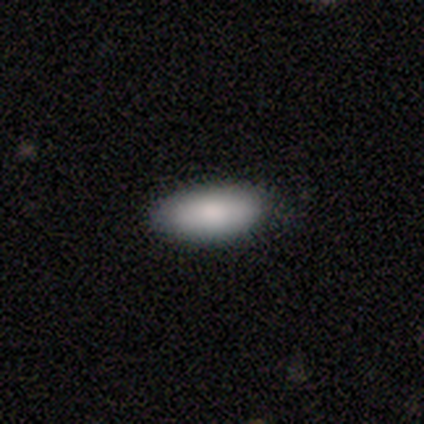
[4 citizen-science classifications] Smooth or featured: smooth — 100%
How rounded: in between — 100%
Merging: none — 75% (minor disturbance — 25%)